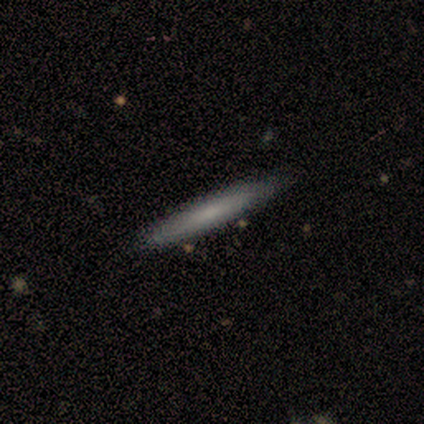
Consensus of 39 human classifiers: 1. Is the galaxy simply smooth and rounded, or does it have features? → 69% smooth, 31% featured or disk, 0% star or artifact.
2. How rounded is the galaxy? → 100% cigar-shaped, 0% round, 0% in between.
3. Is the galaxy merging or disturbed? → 64% none, 10% minor disturbance, 3% merger, 0% major disturbance.